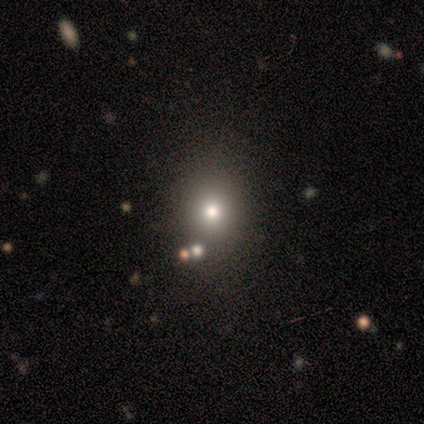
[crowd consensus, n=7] Overall: star or artifact (57%; smooth 43%).